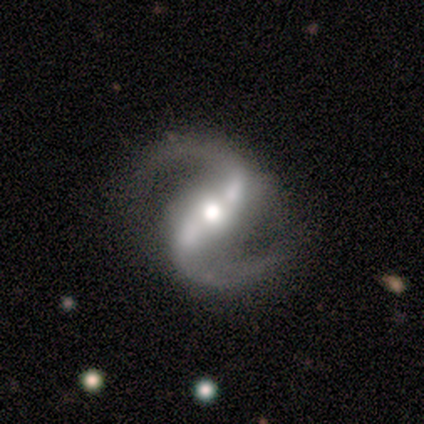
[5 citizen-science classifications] smooth_or_featured: featured or disk (p=1.00)
disk_edge_on: no (p=1.00)
bar: strong (p=0.60) [alt: weak p=0.40]
has_spiral_arms: yes (p=1.00)
spiral_winding: medium (p=0.80) [alt: loose p=0.20]
spiral_arm_count: 2 (p=1.00)
bulge_size: moderate (p=0.80) [alt: none p=0.20]
merging: none (p=0.80) [alt: merger p=0.20]